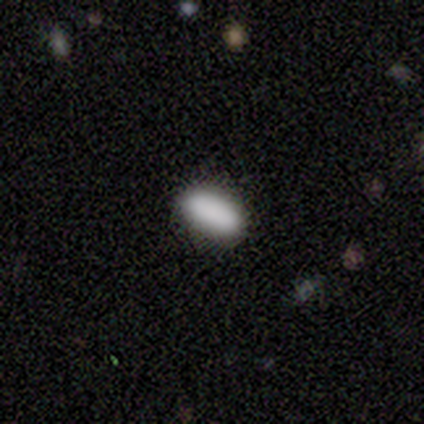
Q: Smooth or featured?
A: smooth (87%); runner-up: star or artifact (13%)
Q: How rounded?
A: in between (77%); runner-up: cigar-shaped (23%)
Q: Merging?
A: none (92%); runner-up: minor disturbance (8%)